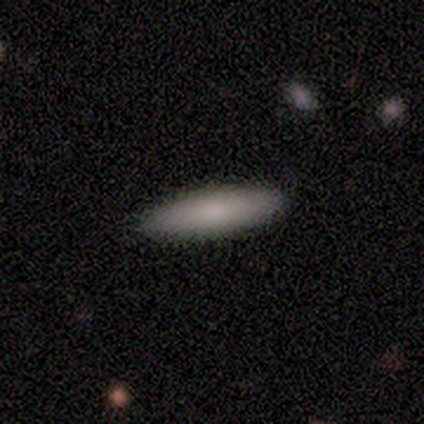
Overall: smooth (67%; featured or disk 33%). How rounded: in between (50%, tied with cigar-shaped). Merging: none (67%; minor disturbance 33%).